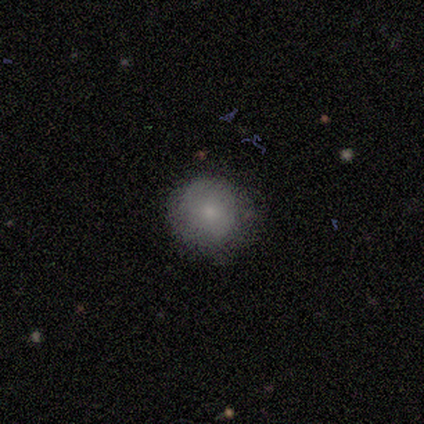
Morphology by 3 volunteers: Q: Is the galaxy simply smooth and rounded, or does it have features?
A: smooth — 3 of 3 (100%).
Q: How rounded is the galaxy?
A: round — 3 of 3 (100%).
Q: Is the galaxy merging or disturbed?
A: none — 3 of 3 (100%).